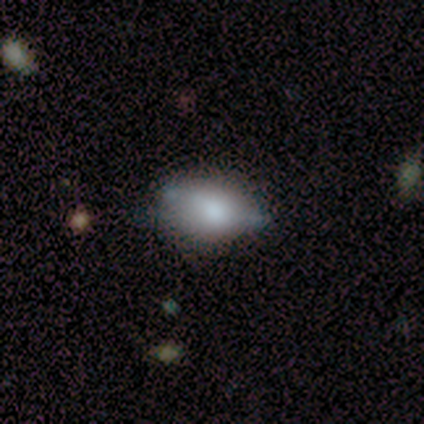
A smooth galaxy with no disk features (100%) that is in between round and cigar-shaped (100%).

Vote fractions:
- Smooth or featured? smooth: 100% / featured or disk: 0% / star or artifact: 0%
- How rounded? in between: 100% / round: 0% / cigar-shaped: 0%
- Merging? none: 80% / major disturbance: 20% / minor disturbance: 0% / merger: 0%